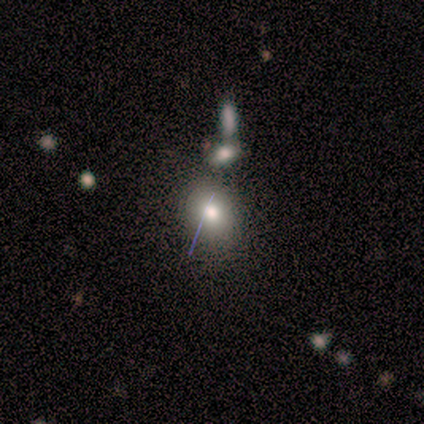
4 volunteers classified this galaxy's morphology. This is clearly a smooth galaxy (100%). How rounded: possibly round (50%, tied with in between). Merging: likely none (75%).